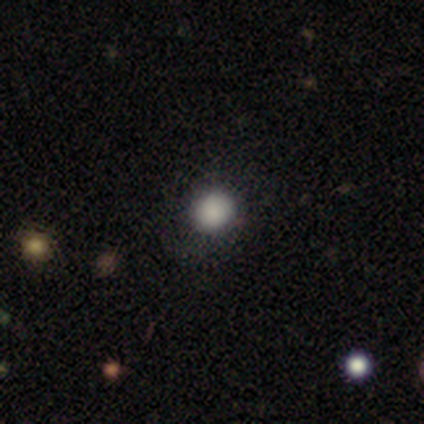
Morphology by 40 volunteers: Overall: smooth (95%). How rounded: round (87%). Merging: none (82%).